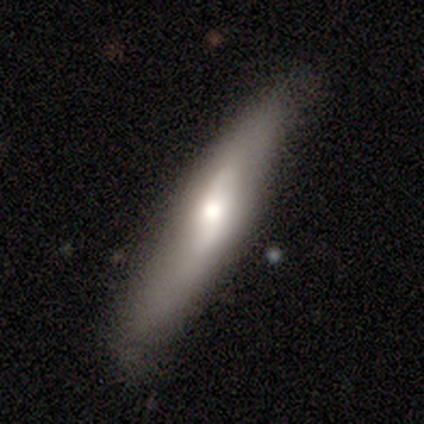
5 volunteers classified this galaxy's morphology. Smooth or featured? 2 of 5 (40%, tied with featured or disk) said smooth. How rounded? 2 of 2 (100%) said in between. Merging? 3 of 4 (75%) said none.